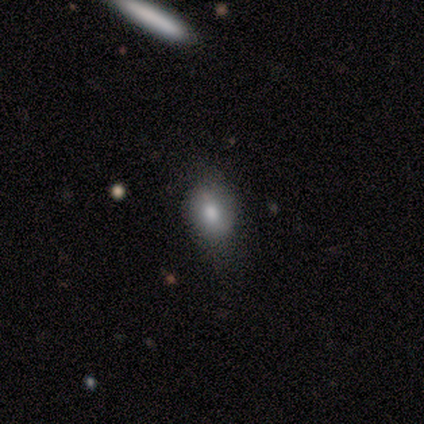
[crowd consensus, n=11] Smooth or featured? 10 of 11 (91%) said smooth. How rounded? 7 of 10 (70%) said in between. Merging? 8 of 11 (73%) said none.